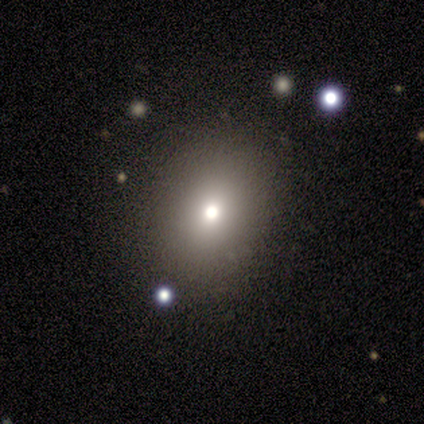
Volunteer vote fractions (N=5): Smooth or featured? smooth (80%)
How rounded? round (50%, tied with in between)
Merging? none (100%)